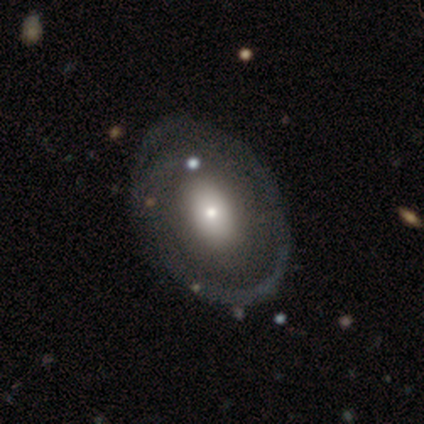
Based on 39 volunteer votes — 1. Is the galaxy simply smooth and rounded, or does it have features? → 62% featured or disk, 36% smooth, 3% star or artifact.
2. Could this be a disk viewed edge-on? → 96% no, 4% yes.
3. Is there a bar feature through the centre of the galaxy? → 87% no, 9% strong, 4% weak.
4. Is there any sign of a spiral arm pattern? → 57% no, 43% yes.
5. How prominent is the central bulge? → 65% moderate, 17% small, 13% large, 4% dominant, 0% none.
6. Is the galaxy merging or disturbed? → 37% none, 13% minor disturbance, 5% major disturbance, 3% merger.